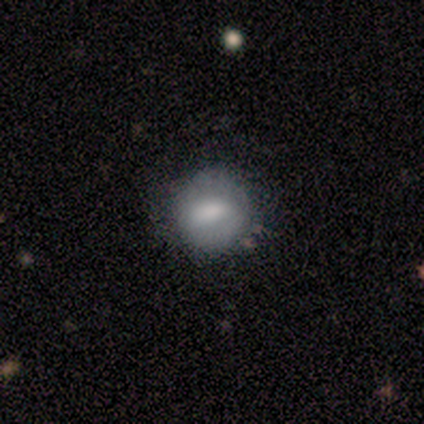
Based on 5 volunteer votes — This is likely a smooth galaxy (60%). How rounded: clearly round (100%). Merging: clearly none (80%).